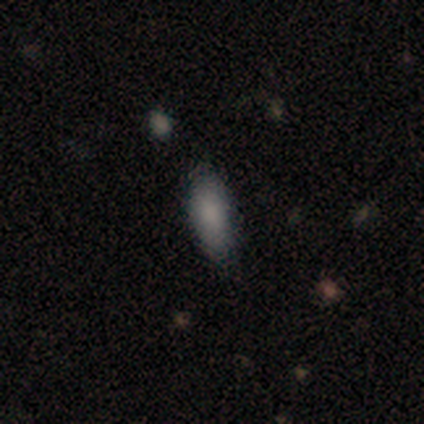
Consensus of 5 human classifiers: Smooth or featured: smooth — 100%
How rounded: in between — 80% (cigar-shaped — 20%)
Merging: none — 100%